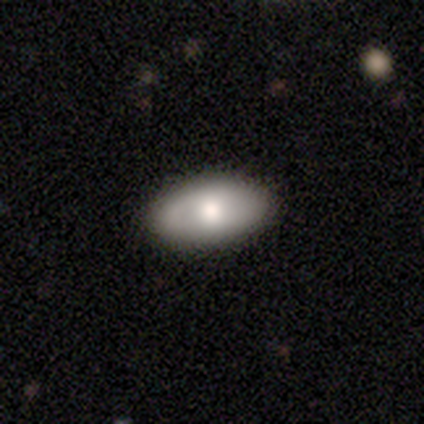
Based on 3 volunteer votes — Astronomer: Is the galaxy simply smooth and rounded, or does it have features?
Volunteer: featured or disk — 67%.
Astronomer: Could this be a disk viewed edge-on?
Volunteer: no — 100%.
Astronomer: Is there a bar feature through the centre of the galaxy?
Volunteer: no — 100%.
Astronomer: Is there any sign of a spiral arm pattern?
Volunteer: no — 100%.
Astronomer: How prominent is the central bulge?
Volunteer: moderate — 100%.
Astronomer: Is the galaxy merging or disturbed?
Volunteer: none — 67%.